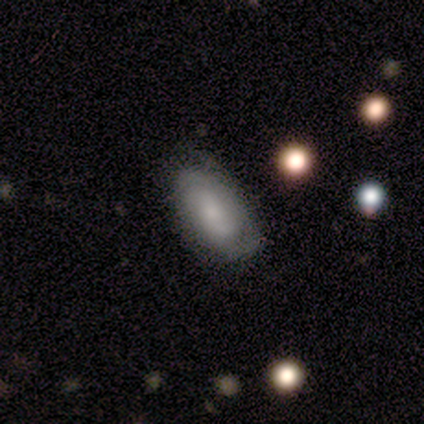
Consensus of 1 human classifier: Smooth or featured? 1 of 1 (100%) said featured or disk. Edge-on disk? 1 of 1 (100%) said no. Bar? 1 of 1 (100%) said weak. Spiral arms? 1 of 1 (100%) said yes. Spiral winding? 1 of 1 (100%) said tight. Spiral arm count? 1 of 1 (100%) said 2. Bulge size? 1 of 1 (100%) said moderate. Merging? 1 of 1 (100%) said none.